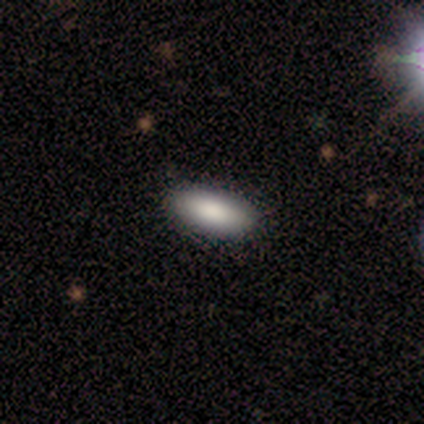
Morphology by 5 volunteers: A smooth galaxy with no disk features (100%) that is in between round and cigar-shaped (80%).

Vote fractions:
- Smooth or featured? smooth: 100% / featured or disk: 0% / star or artifact: 0%
- How rounded? in between: 80% / cigar-shaped: 20% / round: 0%
- Merging? none: 100% / minor disturbance: 0% / major disturbance: 0% / merger: 0%